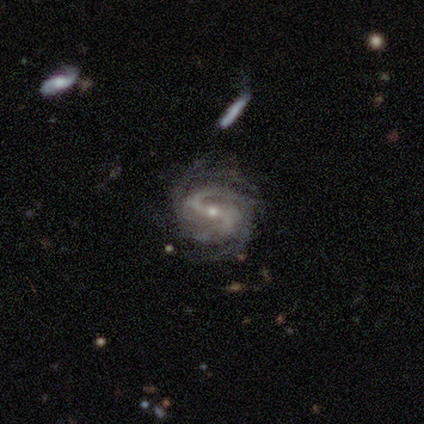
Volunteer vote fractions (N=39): A featured or disk galaxy (97%) with a strong bar (54%), 2 (65%) medium (46%) spiral arms (100%) and a small central bulge (65%).

Vote fractions:
- Smooth or featured? featured or disk: 97% / star or artifact: 3% / smooth: 0%
- Edge-on disk? no: 97% / yes: 3%
- Bar? strong: 54% / weak: 32% / no: 14%
- Spiral arms? yes: 100% / no: 0%
- Spiral winding? medium: 46% / tight: 43% / loose: 11%
- Spiral arm count? 2: 65% / 4: 19% / 1: 5% / 3: 5% / more than 4: 3% / can't tell: 3%
- Bulge size? small: 65% / moderate: 35% / dominant: 0% / large: 0% / none: 0%
- Merging? none: 61% / minor disturbance: 26% / major disturbance: 8% / merger: 5%